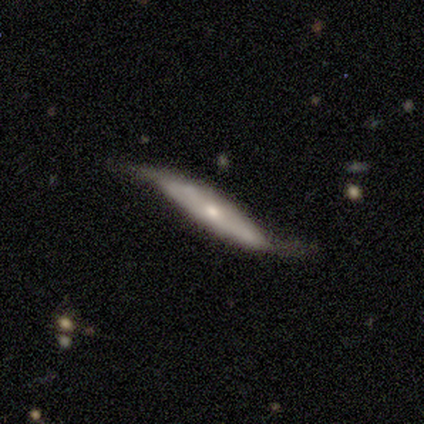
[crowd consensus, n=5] Volunteers were most divided on "bar" (2-way tie): strong: 50%, weak: 50%, no: 0%. More confident: spiral arms — yes (100%); spiral winding — loose (100%); spiral arm count — 2 (100%); bulge size — small (100%); edge-on disk — no (67%); smooth or featured — featured or disk (60%); merging — none (60%).